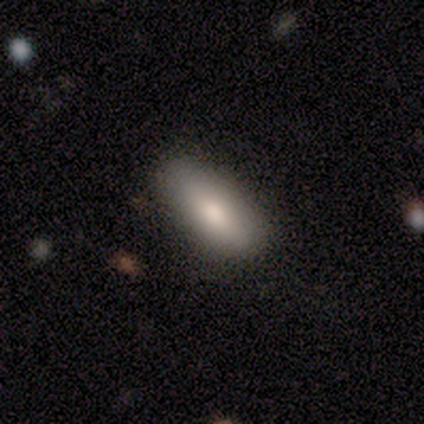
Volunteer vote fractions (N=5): This is clearly a smooth galaxy (80%). How rounded: clearly in between (100%). Merging: clearly none (100%).